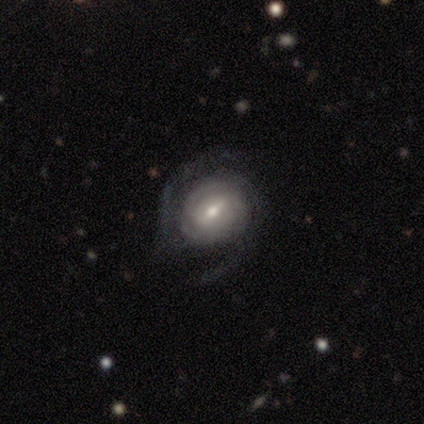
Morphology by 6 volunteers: Smooth or featured? featured or disk (100%)
Edge-on disk? no (100%)
Bar? weak (50%)
Spiral arms? yes (83%)
Spiral winding? tight (40%, tied with medium)
Spiral arm count? 2 (40%, tied with can't tell)
Bulge size? moderate (67%)
Merging? none (83%)